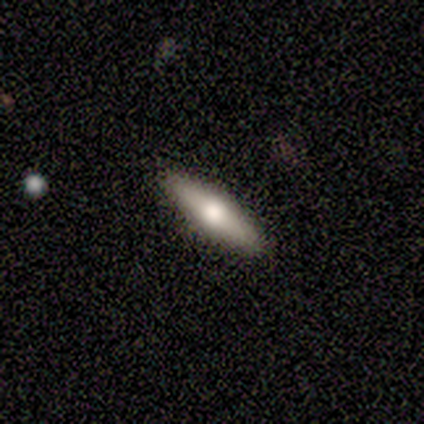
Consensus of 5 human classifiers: Overall: smooth (60%; featured or disk 40%). How rounded: cigar-shaped (100%). Merging: none (80%).